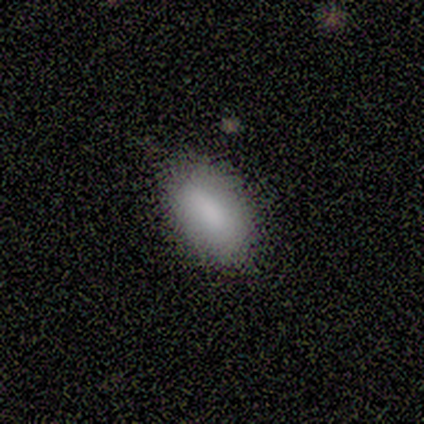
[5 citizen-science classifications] smooth-or-featured: smooth: 100% | featured or disk: 0% | star or artifact: 0%
  how-rounded: in between: 100% | round: 0% | cigar-shaped: 0%
  merging: none: 80% | minor disturbance: 20% | major disturbance: 0% | merger: 0%